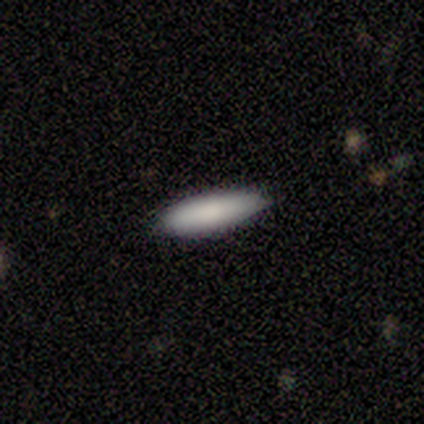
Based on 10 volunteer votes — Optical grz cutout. It shows a smooth galaxy with no disk features (60%) that is in between round and cigar-shaped (67%). Merging: none (78%).